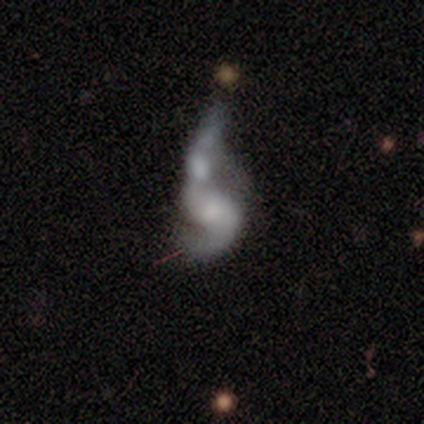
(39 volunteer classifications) A featured or disk galaxy (69%) with no bar (60%), 2 (85%) loose (65%) spiral arms (80%) and a small central bulge (44%).

Vote fractions:
- Smooth or featured? featured or disk: 69% / smooth: 26% / star or artifact: 5%
- Edge-on disk? no: 93% / yes: 7%
- Bar? no: 60% / weak: 36% / strong: 4%
- Spiral arms? yes: 80% / no: 20%
- Spiral winding? loose: 65% / medium: 30% / tight: 5%
- Spiral arm count? 2: 85% / 1: 10% / can't tell: 5% / 3: 0% / 4: 0% / more than 4: 0%
- Bulge size? small: 44% / moderate: 28% / none: 28% / dominant: 0% / large: 0%
- Merging? merger: 51% / major disturbance: 35% / none: 8% / minor disturbance: 5%